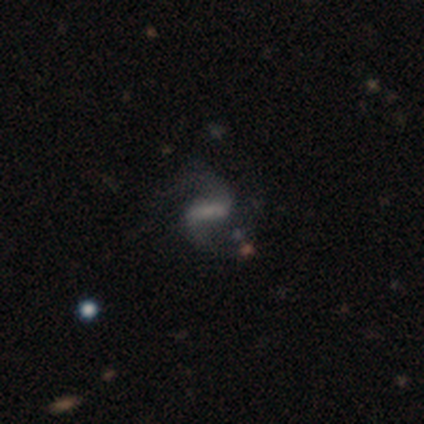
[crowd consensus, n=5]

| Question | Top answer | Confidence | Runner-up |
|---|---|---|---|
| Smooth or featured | featured or disk | 80% | smooth (20%) |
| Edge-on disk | no | 100% | — |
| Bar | strong | 75% | weak (25%) |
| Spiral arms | yes | 100% | — |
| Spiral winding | loose | 100% | — |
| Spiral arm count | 2 | 100% | — |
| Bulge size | none | 75% | small (25%) |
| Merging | none | 60% | minor disturbance (20%) |